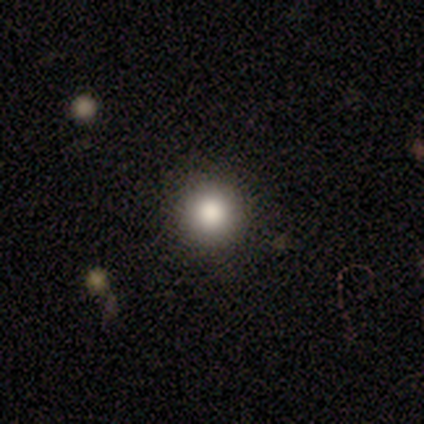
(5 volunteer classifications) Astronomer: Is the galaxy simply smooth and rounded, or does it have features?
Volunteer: smooth — 80%.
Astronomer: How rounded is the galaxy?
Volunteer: round — 100%.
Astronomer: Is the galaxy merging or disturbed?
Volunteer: none — 100%.